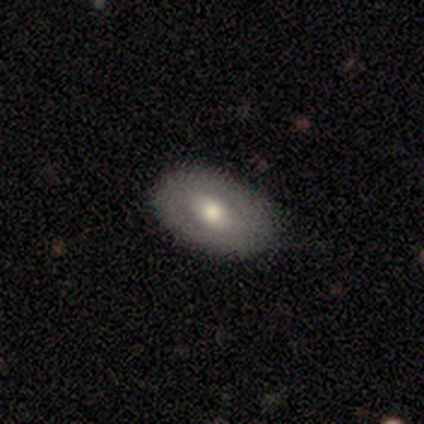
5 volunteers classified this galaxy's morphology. smooth-or-featured: smooth: 40% (tied) | star or artifact: 40% (tied) | featured or disk: 20%
  how-rounded: in between: 100% | round: 0% | cigar-shaped: 0%
  merging: none: 67% | minor disturbance: 33% | major disturbance: 0% | merger: 0%